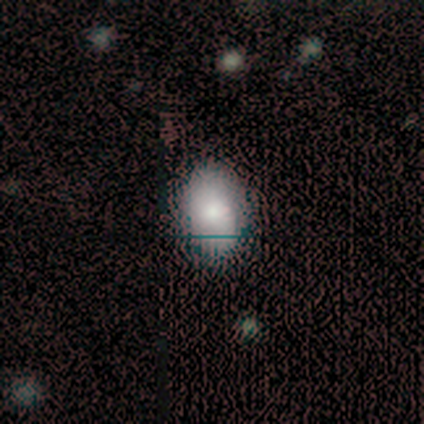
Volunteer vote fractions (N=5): Overall: featured or disk (60%; smooth 40%). Edge-on disk: no (100%). Bar: no (100%). Spiral arms: no (100%). Bulge size: large (33%, tied with moderate and small). Merging: none (100%).